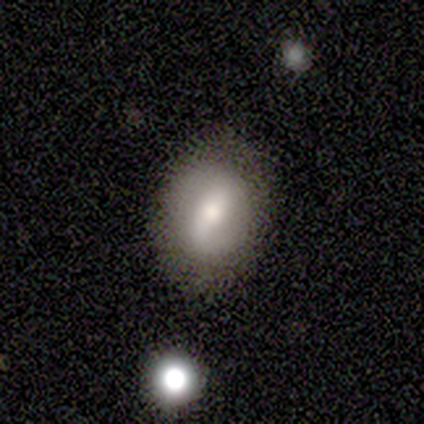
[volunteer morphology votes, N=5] Smooth or featured? 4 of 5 (80%) said smooth. How rounded? 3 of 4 (75%) said in between. Merging? 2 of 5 (40%, tied with minor disturbance) said none.